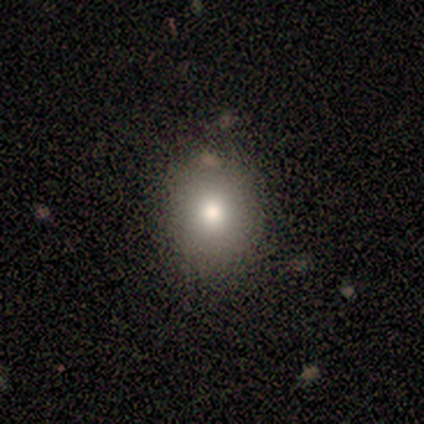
Smooth or featured?
  - smooth: 100% *
  - featured or disk: 0%
  - star or artifact: 0%
How rounded?
  - in between: 60% *
  - round: 40%
  - cigar-shaped: 0%
Merging?
  - none: 80% *
  - minor disturbance: 20%
  - major disturbance: 0%
  - merger: 0%